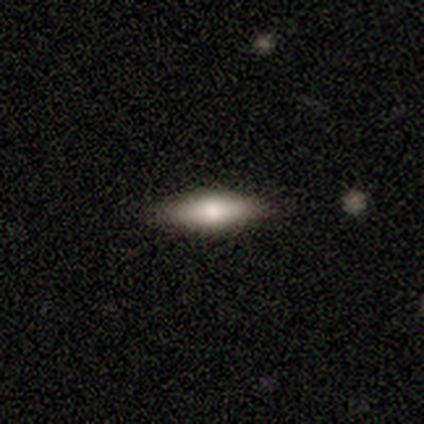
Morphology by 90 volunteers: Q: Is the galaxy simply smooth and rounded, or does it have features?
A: smooth — 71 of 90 (79%).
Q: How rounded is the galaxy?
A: cigar-shaped — 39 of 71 (55%).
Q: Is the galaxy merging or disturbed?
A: none — 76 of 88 (86%).